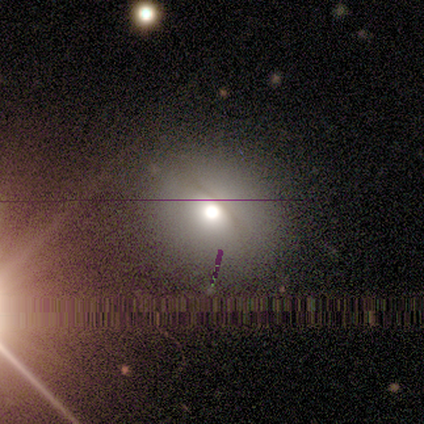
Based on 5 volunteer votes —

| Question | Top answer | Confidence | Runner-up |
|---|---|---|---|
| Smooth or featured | smooth | 60% | featured or disk (40%) |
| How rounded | round | 67% | in between (33%) |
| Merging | none | 80% | minor disturbance (20%) |